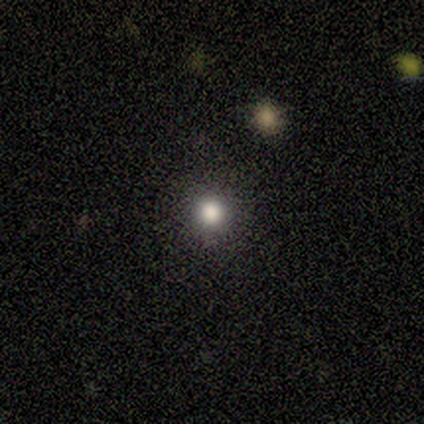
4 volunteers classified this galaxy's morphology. Smooth or featured? smooth (100%)
How rounded? round (100%)
Merging? none (75%)